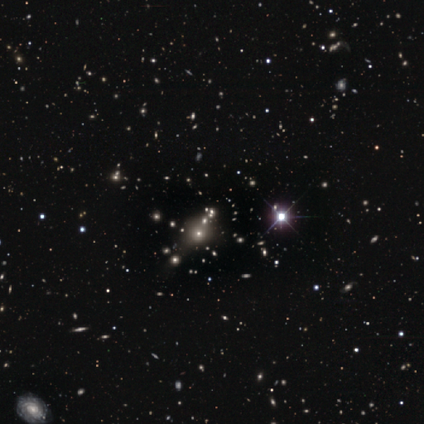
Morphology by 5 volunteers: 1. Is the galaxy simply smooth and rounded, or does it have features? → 80% star or artifact, 20% smooth, 0% featured or disk.